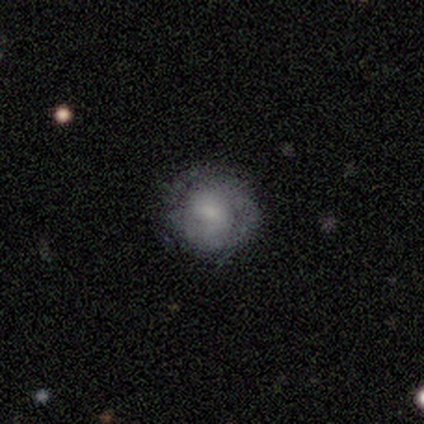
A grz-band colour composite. It shows a smooth galaxy with no disk features (50%, tied with featured or disk) that is round (100%). Merging: none (100%).